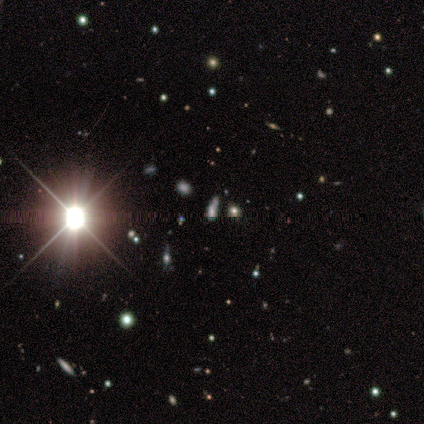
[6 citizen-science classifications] This is clearly a star or artifact rather than a galaxy (100%).